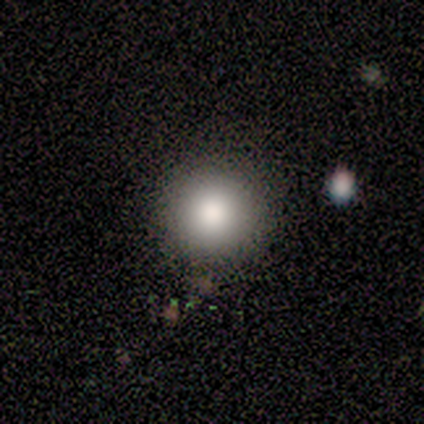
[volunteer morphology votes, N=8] This appears to be a smooth galaxy with no disk features (88%) that is round (100%). Merging: none (88%).